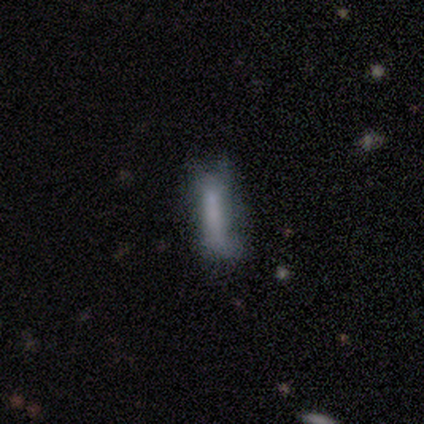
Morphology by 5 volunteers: Overall: smooth (60%; featured or disk 20%). How rounded: cigar-shaped (100%). Merging: none (50%; minor disturbance 25%).